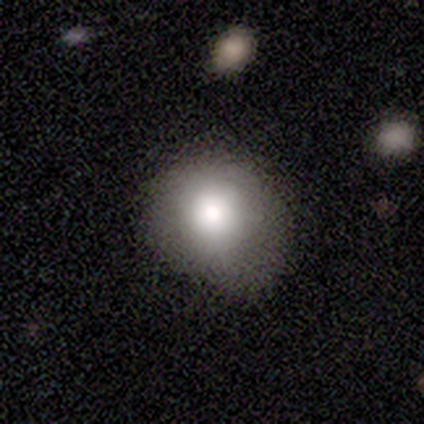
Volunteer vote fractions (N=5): Smooth or featured? 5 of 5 (100%) said smooth. How rounded? 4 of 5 (80%) said round. Merging? 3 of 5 (60%) said minor disturbance.